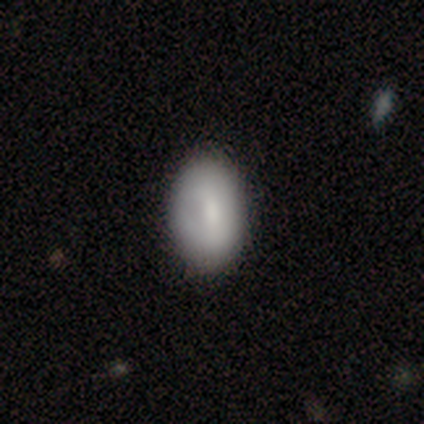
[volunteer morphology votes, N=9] type=smooth (100%); roundness=in between (100%); merging=none (89%).